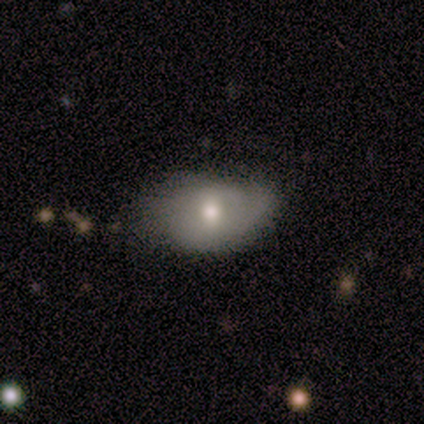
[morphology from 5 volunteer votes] This appears to be a featured or disk galaxy (60%) with no bar (67%), 2 (50%, tied with can't tell) medium (50%, tied with loose) spiral arms (67%) and a small central bulge (67%). Merging: none (80%).